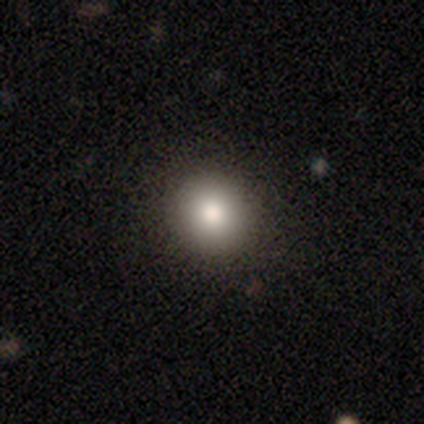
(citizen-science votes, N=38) A smooth galaxy with no disk features (82%) that is round (90%). Merging: none (91%).